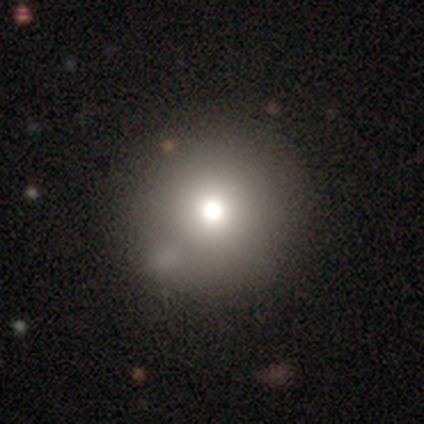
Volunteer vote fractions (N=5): Q: Smooth or featured?
A: smooth (40%); tied with: featured or disk (40%)
Q: How rounded?
A: round (100%)
Q: Merging?
A: none (75%); runner-up: minor disturbance (25%)